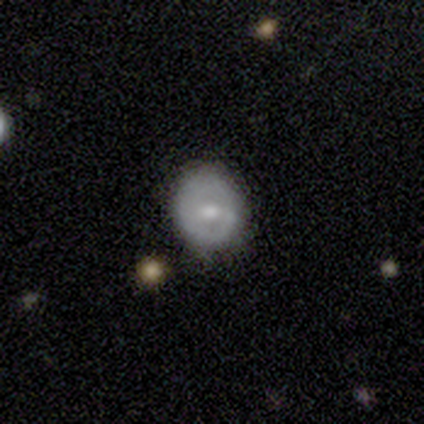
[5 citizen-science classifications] Q: Smooth or featured?
A: smooth (60%); runner-up: featured or disk (40%)
Q: How rounded?
A: round (100%)
Q: Merging?
A: none (80%); runner-up: minor disturbance (20%)